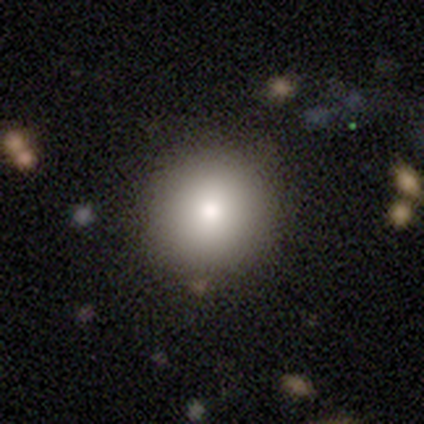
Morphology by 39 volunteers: This is likely a smooth galaxy (74%). How rounded: clearly round (90%). Merging: clearly none (89%).